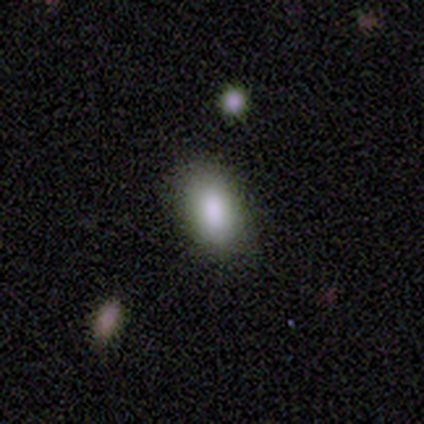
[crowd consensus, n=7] Smooth or featured? 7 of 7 (100%) said smooth. How rounded? 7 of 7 (100%) said in between. Merging? 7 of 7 (100%) said none.